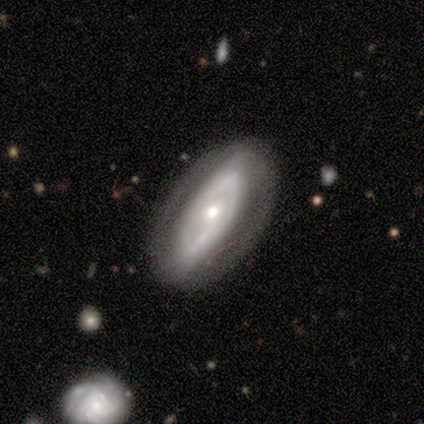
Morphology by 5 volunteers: Smooth or featured? 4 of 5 (80%) said featured or disk. Edge-on disk? 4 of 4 (100%) said no. Bar? 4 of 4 (100%) said no. Spiral arms? 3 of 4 (75%) said yes. Spiral winding? 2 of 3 (67%) said medium. Spiral arm count? 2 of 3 (67%) said can't tell. Bulge size? 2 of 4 (50%) said moderate. Merging? 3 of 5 (60%) said none.